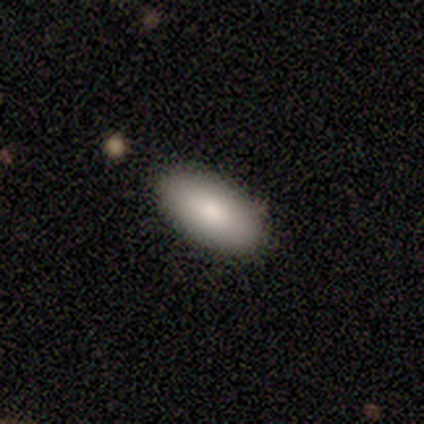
Smooth or featured? 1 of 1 (100%) said smooth. How rounded? 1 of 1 (100%) said in between. Merging? 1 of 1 (100%) said none.